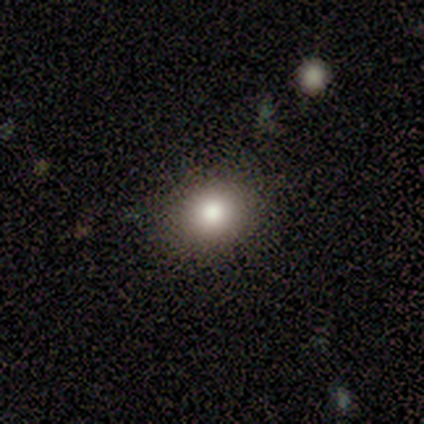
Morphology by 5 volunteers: This appears to be a smooth galaxy with no disk features (60%) that is round (100%). Merging: none (100%).